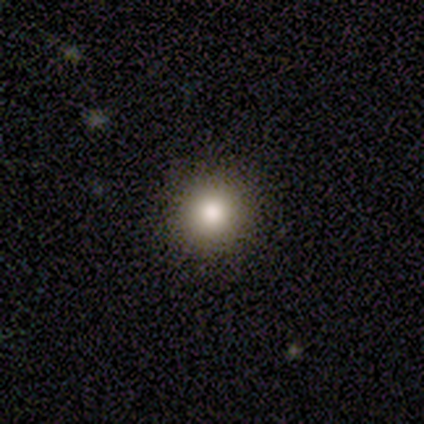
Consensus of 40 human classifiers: Smooth or featured? 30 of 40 (75%) said smooth. How rounded? 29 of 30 (97%) said round. Merging? 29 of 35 (83%) said none.